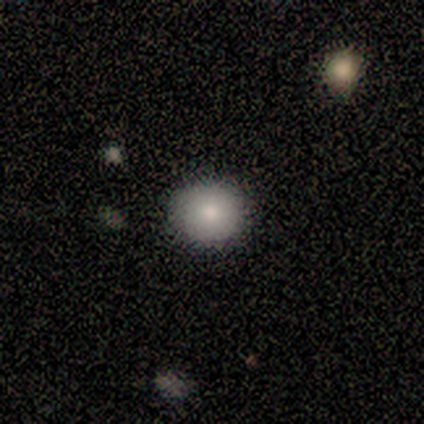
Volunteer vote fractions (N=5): This is clearly a smooth galaxy (100%). How rounded: clearly round (100%). Merging: clearly none (100%).